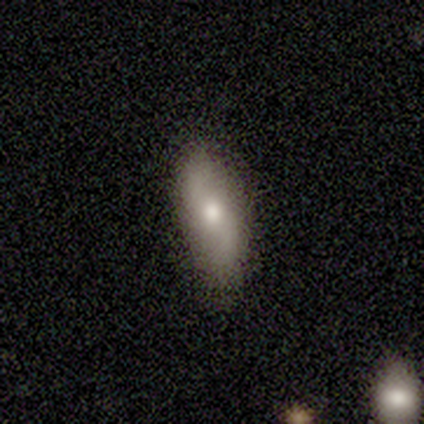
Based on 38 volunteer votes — Volunteers were most divided on "smooth or featured": smooth: 61%, featured or disk: 37%, star or artifact: 3%. More confident: how rounded — in between (70%); merging — none (68%).